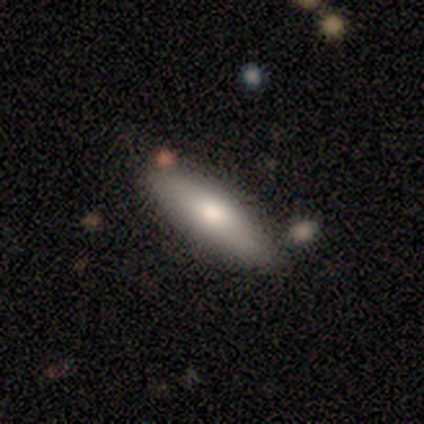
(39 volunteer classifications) Smooth or featured: smooth — 72% (featured or disk — 21%)
How rounded: cigar-shaped — 50% (in between — 46%)
Merging: none — 67% (minor disturbance — 19%)